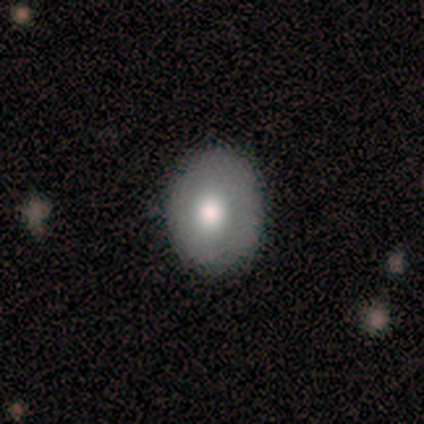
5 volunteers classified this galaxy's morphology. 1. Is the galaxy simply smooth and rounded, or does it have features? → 80% smooth, 20% featured or disk, 0% star or artifact.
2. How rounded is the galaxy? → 75% round, 25% in between, 0% cigar-shaped.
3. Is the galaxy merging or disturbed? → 60% none, 40% minor disturbance, 0% major disturbance, 0% merger.